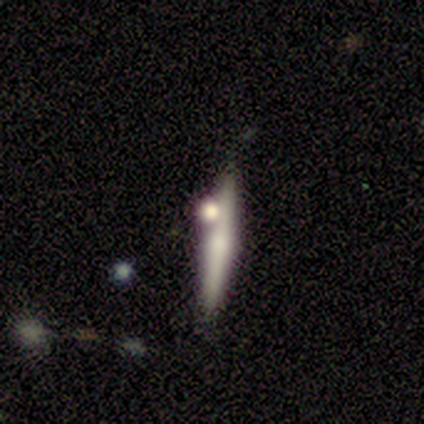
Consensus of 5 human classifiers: Smooth or featured? featured or disk (60%)
Edge-on disk? yes (100%)
Edge-on bulge? rounded (67%)
Merging? none (80%)